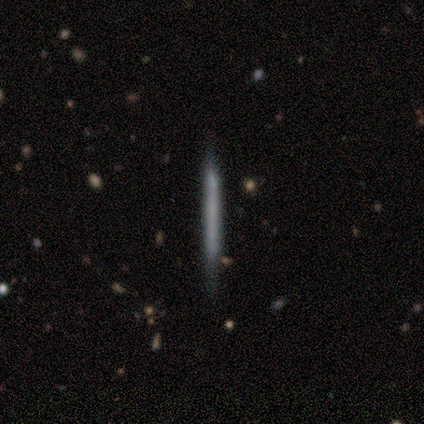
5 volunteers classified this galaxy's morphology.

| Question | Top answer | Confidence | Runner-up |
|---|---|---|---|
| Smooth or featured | featured or disk | 60% | smooth (40%) |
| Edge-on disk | yes | 100% | — |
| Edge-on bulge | none | 100% | — |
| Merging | none | 100% | — |